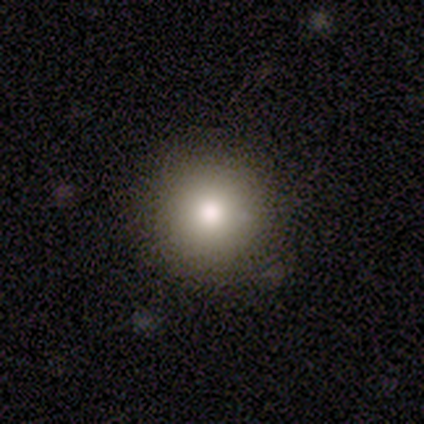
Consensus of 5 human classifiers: Morphology: type=smooth (80%); roundness=round (100%); merging=none (80%).